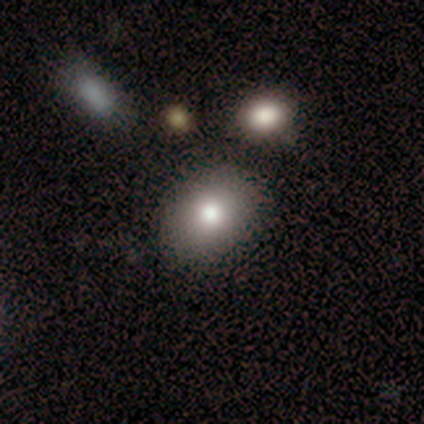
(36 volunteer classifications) smooth-or-featured: smooth: 89% | featured or disk: 6% | star or artifact: 6%
  how-rounded: round: 53% | in between: 47% | cigar-shaped: 0%
  merging: none: 88% | minor disturbance: 6% | major disturbance: 3% | merger: 3%